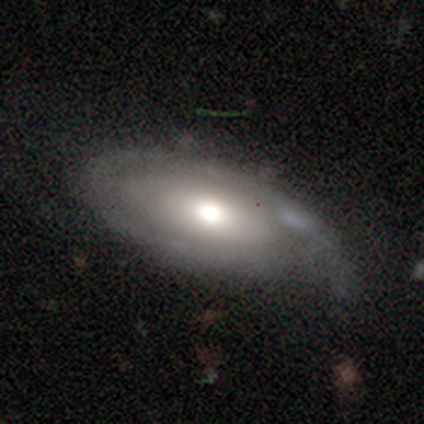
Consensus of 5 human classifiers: smooth-or-featured: featured or disk: 60% | smooth: 40% | star or artifact: 0%
  disk-edge-on: no: 67% | yes: 33%
    bar: no: 100% | strong: 0% | weak: 0%
    has-spiral-arms: yes: 100% | no: 0%
      spiral-winding: tight: 50% (tied) | medium: 50% (tied) | loose: 0%
      spiral-arm-count: 1: 50% (tied) | 2: 50% (tied) | 3: 0% | 4: 0% | more than 4: 0% | can't tell: 0%
    bulge-size: dominant: 50% (tied) | large: 50% (tied) | moderate: 0% | small: 0% | none: 0%
  merging: none: 60% | minor disturbance: 40% | major disturbance: 0% | merger: 0%